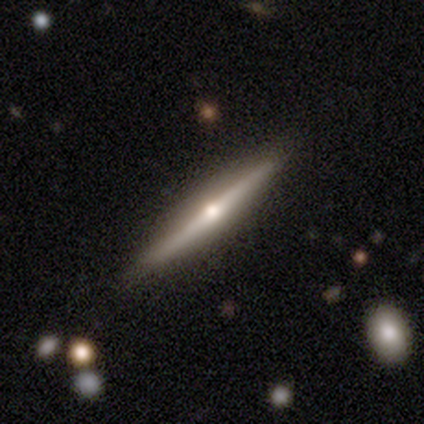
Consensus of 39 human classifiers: A featured or disk galaxy (82%) viewed edge-on (100%) with a rounded central bulge (97%).

Vote fractions:
- Smooth or featured? featured or disk: 82% / smooth: 15% / star or artifact: 3%
- Edge-on disk? yes: 100% / no: 0%
- Edge-on bulge? rounded: 97% / none: 3% / boxy: 0%
- Merging? none: 87% / minor disturbance: 13% / major disturbance: 0% / merger: 0%